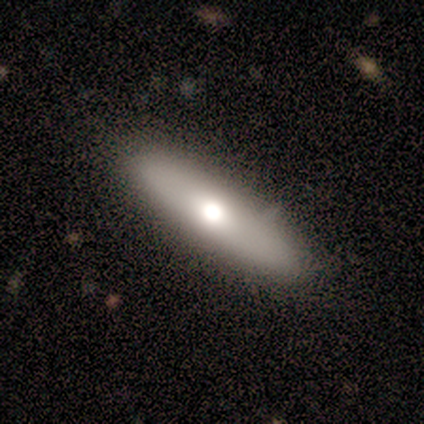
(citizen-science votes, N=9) Smooth or featured?
  - smooth: 78% *
  - featured or disk: 22%
  - star or artifact: 0%
How rounded?
  - cigar-shaped: 71% *
  - in between: 29%
  - round: 0%
Merging?
  - none: 78% *
  - minor disturbance: 11%
  - merger: 11%
  - major disturbance: 0%